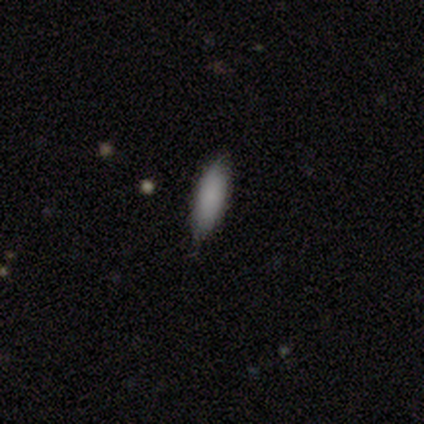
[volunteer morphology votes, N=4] smooth 100%, featured or disk 0%, star or artifact 0%. Down the decision tree: how rounded — cigar-shaped (75%); merging — none (75%).